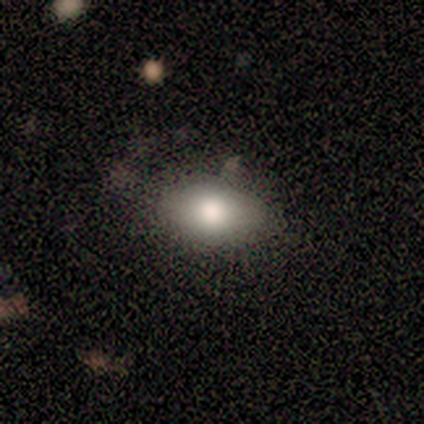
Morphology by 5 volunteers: smooth 80%, featured or disk 20%, star or artifact 0%. Down the decision tree: how rounded — in between (75%); merging — none (80%).